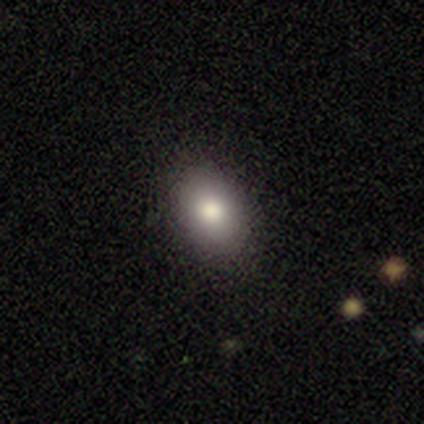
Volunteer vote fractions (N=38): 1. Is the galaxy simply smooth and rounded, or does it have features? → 71% smooth, 16% star or artifact, 13% featured or disk.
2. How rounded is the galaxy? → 78% in between, 22% round, 0% cigar-shaped.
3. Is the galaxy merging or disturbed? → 97% none, 3% minor disturbance, 0% major disturbance, 0% merger.